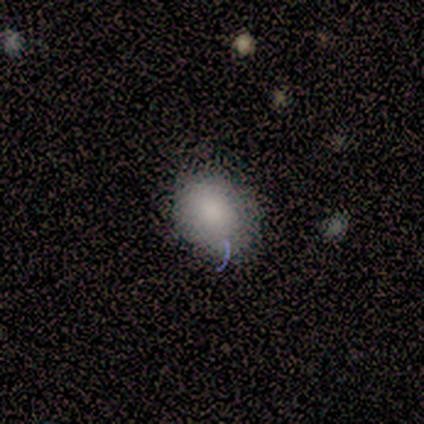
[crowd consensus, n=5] Volunteers were most divided on "how rounded": round: 80%, in between: 20%, cigar-shaped: 0%. More confident: smooth or featured — smooth (100%); merging — none (80%).